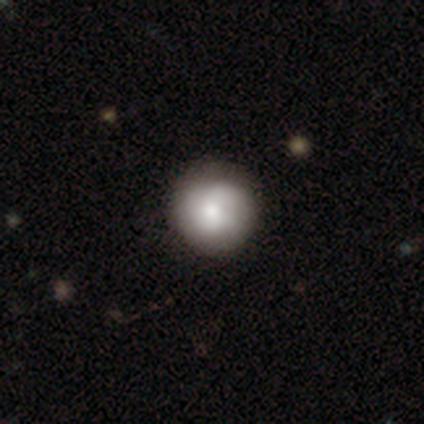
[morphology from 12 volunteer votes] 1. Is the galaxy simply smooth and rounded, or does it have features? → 50% smooth, 33% featured or disk, 17% star or artifact.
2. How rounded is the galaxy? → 100% round, 0% in between, 0% cigar-shaped.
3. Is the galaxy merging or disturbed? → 90% none, 10% minor disturbance, 0% major disturbance, 0% merger.